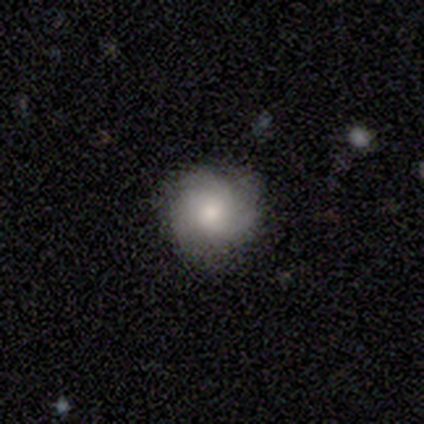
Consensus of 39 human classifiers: A smooth galaxy with no disk features (56%) that is round (91%).

Vote fractions:
- Smooth or featured? smooth: 56% / featured or disk: 38% / star or artifact: 5%
- How rounded? round: 91% / in between: 5% / cigar-shaped: 5%
- Merging? none: 62% / minor disturbance: 30% / merger: 5% / major disturbance: 3%